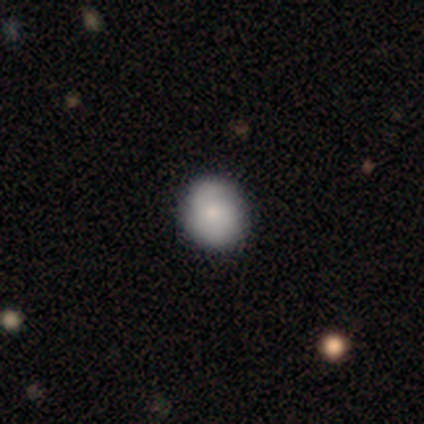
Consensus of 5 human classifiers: Volunteers were most divided on "smooth or featured": smooth: 80%, featured or disk: 20%, star or artifact: 0%. More confident: how rounded — round (100%); merging — none (100%).